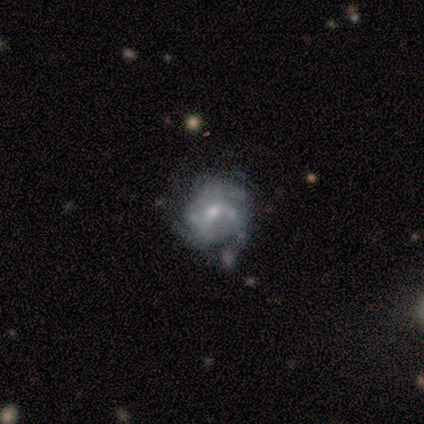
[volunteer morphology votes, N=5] featured or disk 80%, smooth 20%, star or artifact 0%. Down the decision tree: edge-on disk — no (100%); bar — no (75%); spiral arms — yes (100%); spiral arm count — 2 (50%, tied with can't tell); spiral winding — loose (50%); bulge size — moderate (50%); merging — none (40%, tied with minor disturbance).